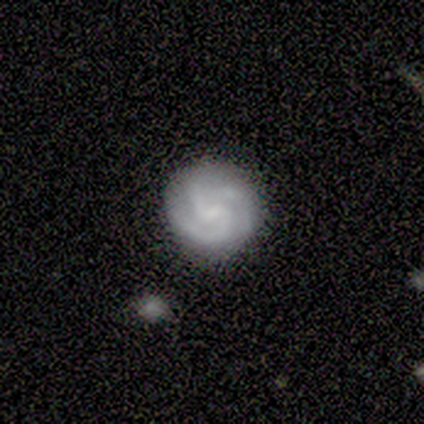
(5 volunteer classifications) Smooth or featured? 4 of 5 (80%) said featured or disk. Edge-on disk? 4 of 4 (100%) said no. Bar? 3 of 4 (75%) said no. Spiral arms? 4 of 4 (100%) said yes. Spiral winding? 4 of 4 (100%) said tight. Spiral arm count? 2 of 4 (50%) said 3. Bulge size? 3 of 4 (75%) said none. Merging? 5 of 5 (100%) said none.